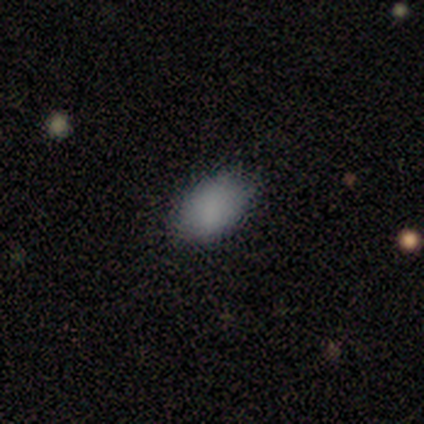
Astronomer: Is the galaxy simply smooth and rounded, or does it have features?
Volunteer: smooth — 83%.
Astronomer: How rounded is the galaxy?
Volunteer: in between — 100%.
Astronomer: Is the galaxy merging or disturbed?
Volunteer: none — 60% (runner-up: minor disturbance, 40%).